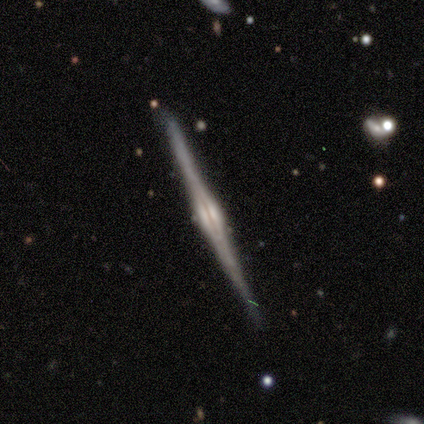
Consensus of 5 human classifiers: Smooth or featured?
  - featured or disk: 100% *
  - smooth: 0%
  - star or artifact: 0%
Edge-on disk?
  - yes: 100% *
  - no: 0%
Edge-on bulge?
  - rounded: 100% *
  - boxy: 0%
  - none: 0%
Merging?
  - none: 80% *
  - minor disturbance: 20%
  - major disturbance: 0%
  - merger: 0%